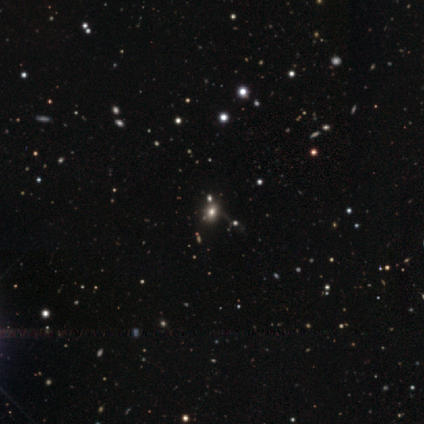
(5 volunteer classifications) A smooth galaxy with no disk features (60%) that is round (67%).

Vote fractions:
- Smooth or featured? smooth: 60% / star or artifact: 40% / featured or disk: 0%
- How rounded? round: 67% / in between: 33% / cigar-shaped: 0%
- Merging? none: 100% / minor disturbance: 0% / major disturbance: 0% / merger: 0%